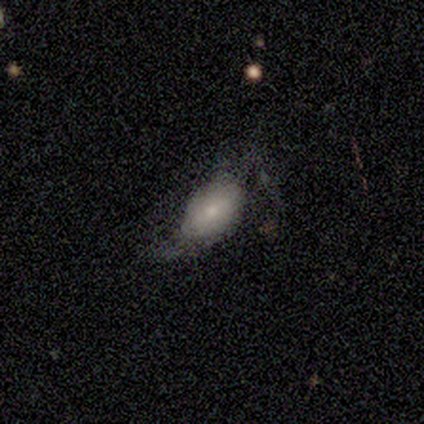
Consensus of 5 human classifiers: Smooth or featured? 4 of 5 (80%) said smooth. How rounded? 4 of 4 (100%) said in between. Merging? 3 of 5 (60%) said minor disturbance.